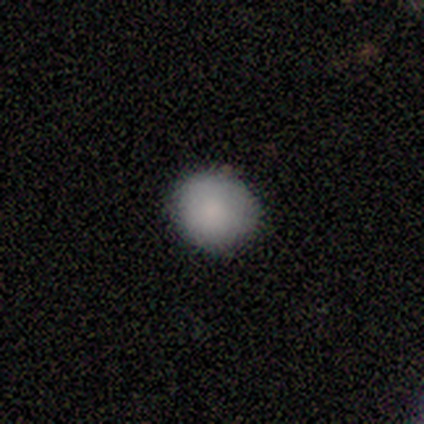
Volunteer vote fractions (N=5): smooth_or_featured: smooth (p=1.00)
how_rounded: in between (p=0.60) [alt: round p=0.40]
merging: none (p=0.80) [alt: minor disturbance p=0.20]